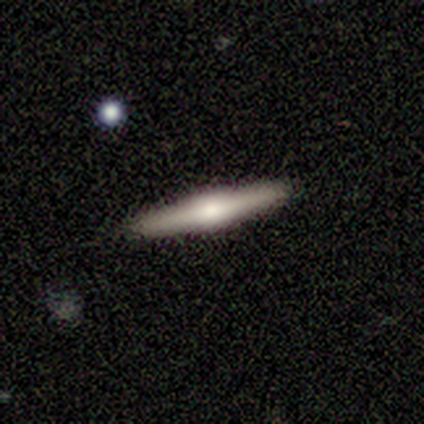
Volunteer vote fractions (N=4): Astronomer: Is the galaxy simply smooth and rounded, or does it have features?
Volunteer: smooth — 50%, tied with featured or disk at 50%.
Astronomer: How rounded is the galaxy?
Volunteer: cigar-shaped — 100%.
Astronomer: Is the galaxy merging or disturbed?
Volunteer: none — 100%.